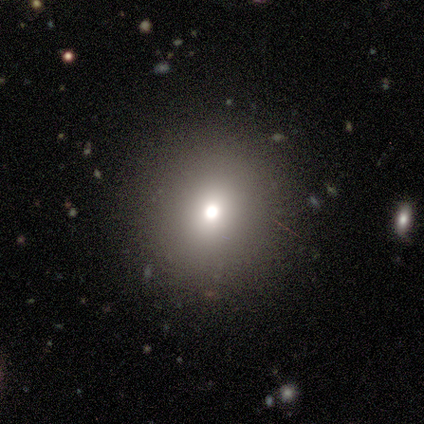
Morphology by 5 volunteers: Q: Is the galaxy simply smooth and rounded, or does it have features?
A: smooth — 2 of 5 (40%, tied with featured or disk).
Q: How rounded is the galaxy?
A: round — 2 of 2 (100%).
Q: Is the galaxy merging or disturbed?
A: none — 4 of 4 (100%).